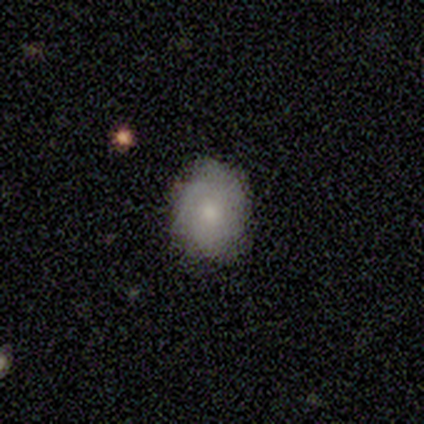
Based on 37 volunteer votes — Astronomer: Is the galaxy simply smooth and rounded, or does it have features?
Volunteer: smooth — 54% (runner-up: featured or disk, 43%).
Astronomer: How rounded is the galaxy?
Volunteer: in between — 60%.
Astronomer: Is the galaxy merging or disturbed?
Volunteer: none — 61%.